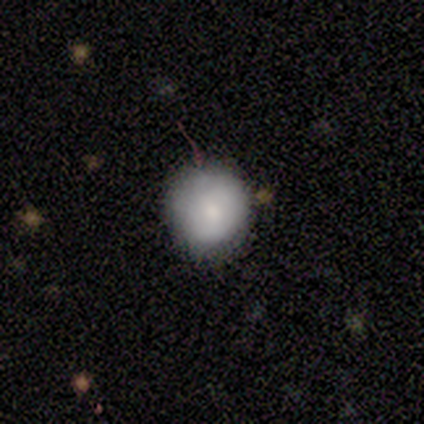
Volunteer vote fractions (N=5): smooth_or_featured: smooth (p=0.80) [alt: featured or disk p=0.20]
how_rounded: round (p=1.00)
merging: none (p=1.00)